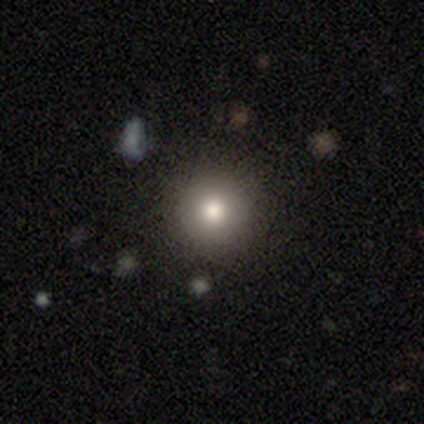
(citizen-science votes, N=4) A smooth galaxy with no disk features (100%) that is round (100%).

Vote fractions:
- Smooth or featured? smooth: 100% / featured or disk: 0% / star or artifact: 0%
- How rounded? round: 100% / in between: 0% / cigar-shaped: 0%
- Merging? none: 100% / minor disturbance: 0% / major disturbance: 0% / merger: 0%